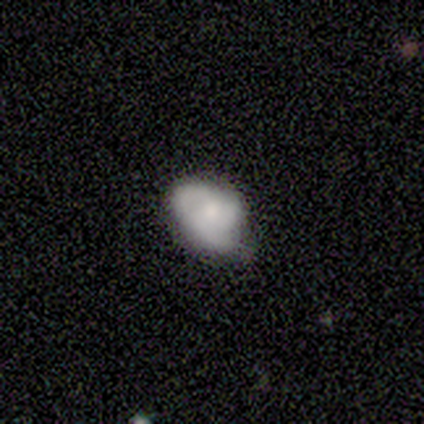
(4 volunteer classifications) smooth 75%, featured or disk 25%, star or artifact 0%. Down the decision tree: how rounded — round (67%); merging — none (25%, tied with minor disturbance, major disturbance and merger).